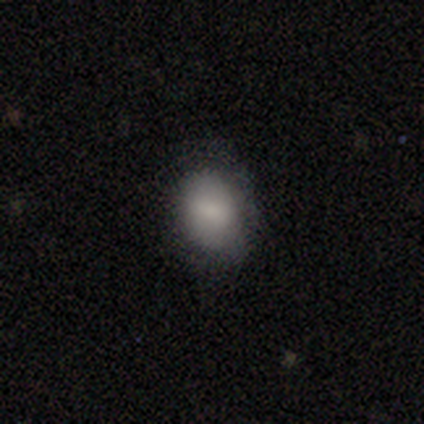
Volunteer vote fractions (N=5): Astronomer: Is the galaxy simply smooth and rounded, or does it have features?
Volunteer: smooth — 60% (runner-up: featured or disk, 40%).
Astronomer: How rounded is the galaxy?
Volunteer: round — 67%.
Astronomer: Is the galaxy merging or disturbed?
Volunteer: none — 80%.